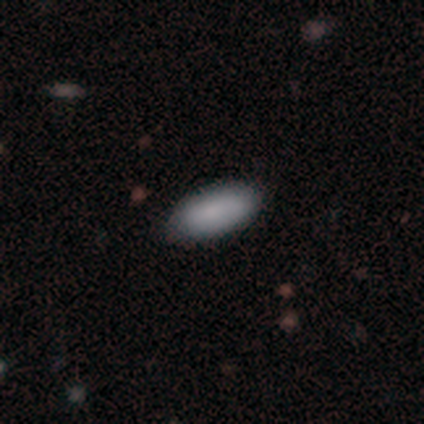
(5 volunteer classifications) Consensus on every question: smooth or featured — smooth (100%); how rounded — in between (100%); merging — none (100%).